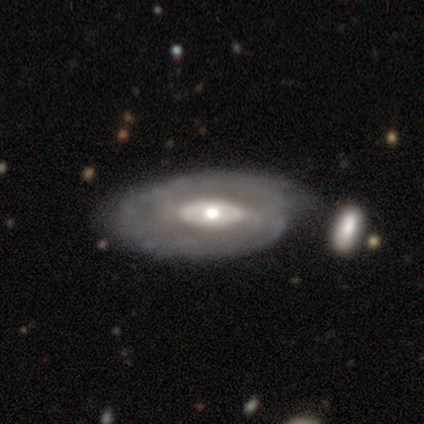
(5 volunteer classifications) This is likely a featured or disk galaxy (60%). It is clearly not viewed edge-on (100%). Bar: likely no (67%). Spiral arm pattern: likely no (67%). Central bulge: marginally large (33%, tied with moderate and small). Merging: likely minor disturbance (60%).